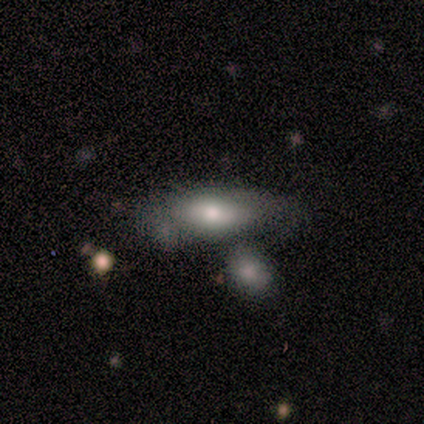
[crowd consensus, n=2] Volunteers were most divided on "smooth or featured" (2-way tie): smooth: 50%, featured or disk: 50%, star or artifact: 0%. More confident: how rounded — in between (100%); merging — none (100%).